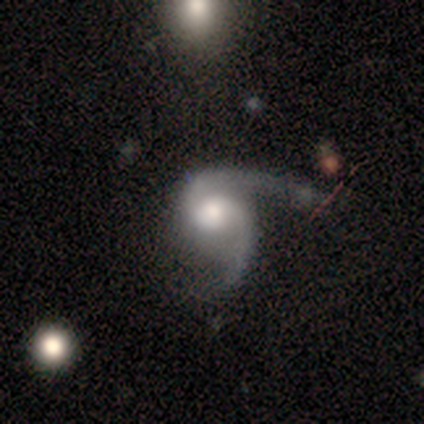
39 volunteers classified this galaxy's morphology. Smooth or featured?
  - featured or disk: 87% *
  - smooth: 10%
  - star or artifact: 3%
Edge-on disk?
  - no: 100% *
  - yes: 0%
Bar?
  - no: 68% *
  - weak: 26%
  - strong: 6%
Spiral arms?
  - yes: 100% *
  - no: 0%
Spiral winding?
  - loose: 44% *
  - medium: 38%
  - tight: 18%
Spiral arm count?
  - 2: 94% *
  - more than 4: 3%
  - can't tell: 3%
  - 1: 0%
  - 3: 0%
  - 4: 0%
Bulge size?
  - moderate: 65% *
  - large: 29%
  - none: 6%
  - dominant: 0%
  - small: 0%
Merging?
  - major disturbance: 45% *
  - none: 42%
  - minor disturbance: 8%
  - merger: 5%